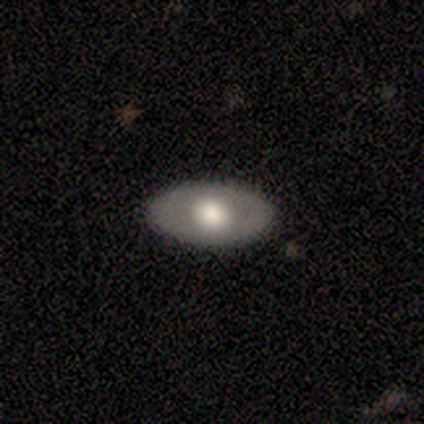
Smooth or featured?
  - smooth: 100% *
  - featured or disk: 0%
  - star or artifact: 0%
How rounded?
  - in between: 100% *
  - round: 0%
  - cigar-shaped: 0%
Merging?
  - none: 100% *
  - minor disturbance: 0%
  - major disturbance: 0%
  - merger: 0%